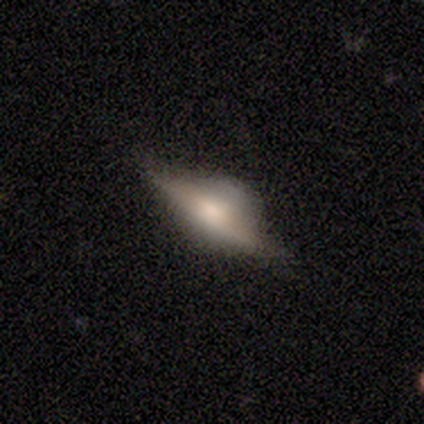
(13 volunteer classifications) This is clearly a featured or disk galaxy (85%). It is clearly viewed edge-on (100%). Edge-on bulge: clearly rounded (100%). Merging: possibly none (54%).